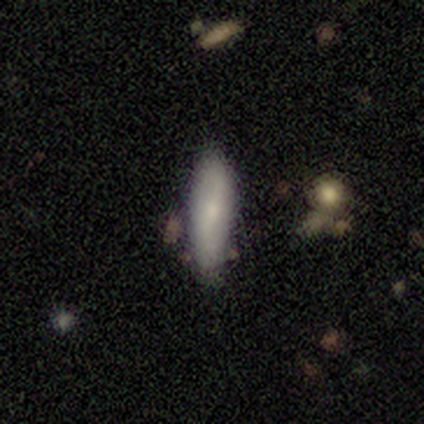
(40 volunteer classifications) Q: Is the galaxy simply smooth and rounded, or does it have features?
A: smooth — 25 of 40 (62%).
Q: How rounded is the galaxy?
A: in between — 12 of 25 (48%, tied with cigar-shaped).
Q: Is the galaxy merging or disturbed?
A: none — 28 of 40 (70%).